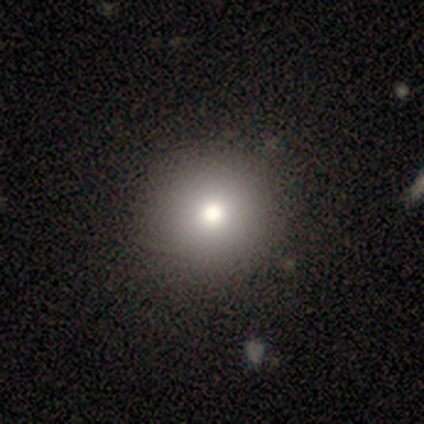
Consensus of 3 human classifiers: Smooth or featured? 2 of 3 (67%) said smooth. How rounded? 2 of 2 (100%) said round. Merging? 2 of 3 (67%) said none.